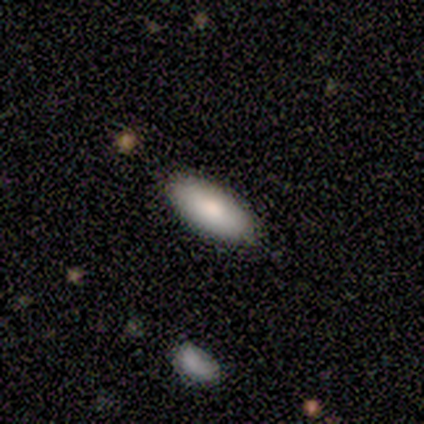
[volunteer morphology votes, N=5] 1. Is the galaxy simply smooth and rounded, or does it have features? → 100% smooth, 0% featured or disk, 0% star or artifact.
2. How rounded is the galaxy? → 100% in between, 0% round, 0% cigar-shaped.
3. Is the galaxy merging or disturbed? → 100% none, 0% minor disturbance, 0% major disturbance, 0% merger.